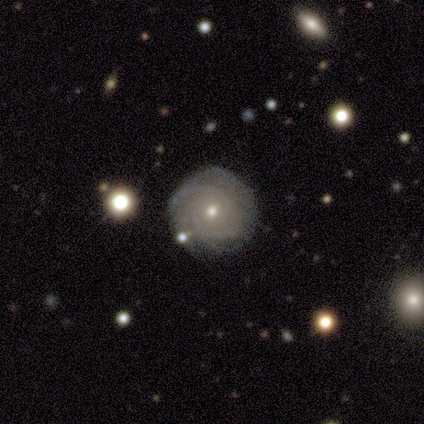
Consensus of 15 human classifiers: This is clearly a featured or disk galaxy (80%). It is clearly not viewed edge-on (100%). Bar: clearly no (83%). Spiral arm pattern: clearly yes (100%). Spiral arm count: possibly 2 (58%). Spiral winding: clearly tight (92%). Central bulge: clearly small (83%). Merging: clearly none (87%).